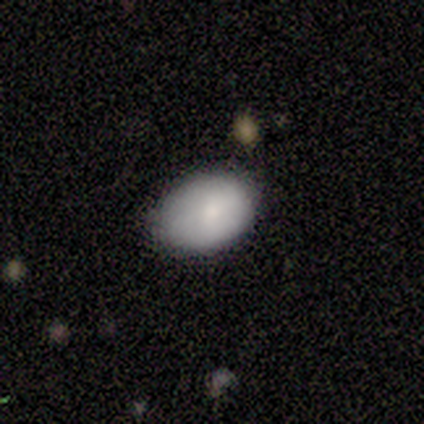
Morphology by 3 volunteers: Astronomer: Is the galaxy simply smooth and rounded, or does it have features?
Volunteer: smooth — 100%.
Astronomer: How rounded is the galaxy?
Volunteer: in between — 100%.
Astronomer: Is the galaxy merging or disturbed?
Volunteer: minor disturbance — 100%.